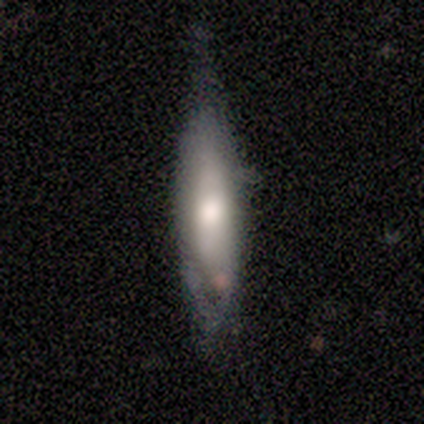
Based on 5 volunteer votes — This is marginally a smooth galaxy (40%, tied with featured or disk). How rounded: clearly in between (100%). Merging: possibly none (50%, tied with minor disturbance).